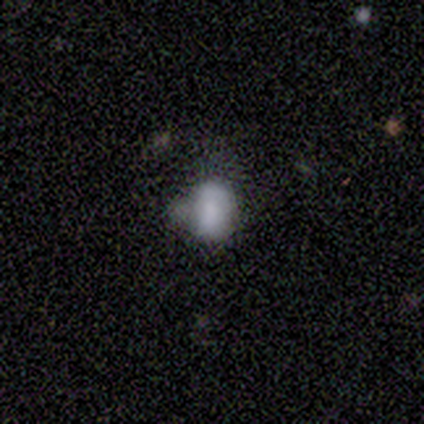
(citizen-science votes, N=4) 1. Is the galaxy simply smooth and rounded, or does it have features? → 75% smooth, 25% star or artifact, 0% featured or disk.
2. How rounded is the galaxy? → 67% in between, 33% round, 0% cigar-shaped.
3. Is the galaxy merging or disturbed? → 67% minor disturbance, 33% merger, 0% none, 0% major disturbance.